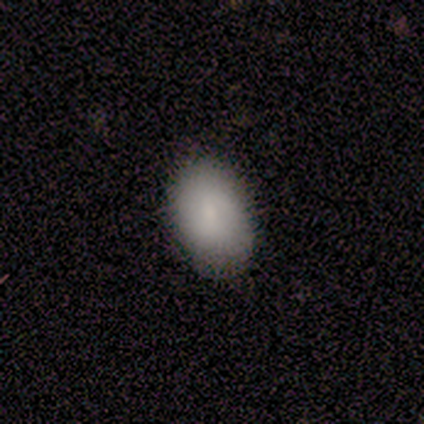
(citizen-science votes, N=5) A smooth galaxy with no disk features (80%) that is in between round and cigar-shaped (100%). Merging: none (80%).